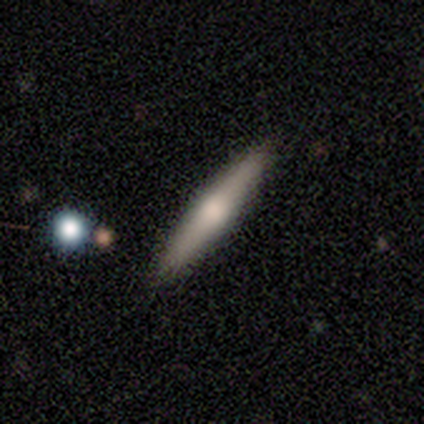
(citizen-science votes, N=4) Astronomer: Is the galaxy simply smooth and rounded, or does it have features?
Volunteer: smooth — 50%, tied with featured or disk at 50%.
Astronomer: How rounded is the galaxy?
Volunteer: cigar-shaped — 100%.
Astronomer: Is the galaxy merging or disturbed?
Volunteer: none — 50%.